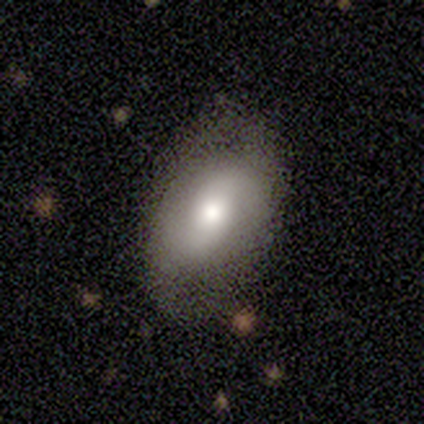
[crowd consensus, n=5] Smooth or featured?
  - featured or disk: 60% *
  - smooth: 40%
  - star or artifact: 0%
Edge-on disk?
  - no: 100% *
  - yes: 0%
Bar?
  - no: 67% *
  - weak: 33%
  - strong: 0%
Spiral arms?
  - yes: 100% *
  - no: 0%
Spiral winding?
  - loose: 67% *
  - tight: 33%
  - medium: 0%
Spiral arm count?
  - 2: 67% *
  - can't tell: 33%
  - 1: 0%
  - 3: 0%
  - 4: 0%
  - more than 4: 0%
Bulge size?
  - moderate: 67% *
  - small: 33%
  - dominant: 0%
  - large: 0%
  - none: 0%
Merging?
  - none: 100% *
  - minor disturbance: 0%
  - major disturbance: 0%
  - merger: 0%